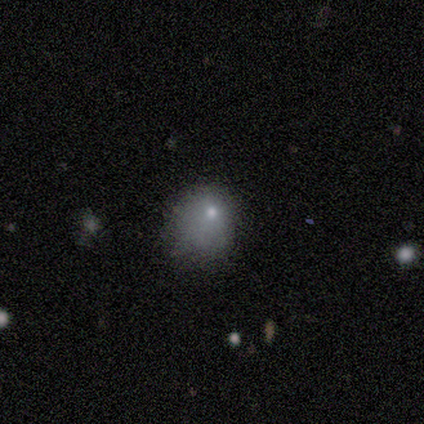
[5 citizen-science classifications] This appears to be a smooth galaxy with no disk features (40%, tied with featured or disk) that is in between round and cigar-shaped (100%). Merging: minor disturbance (75%).